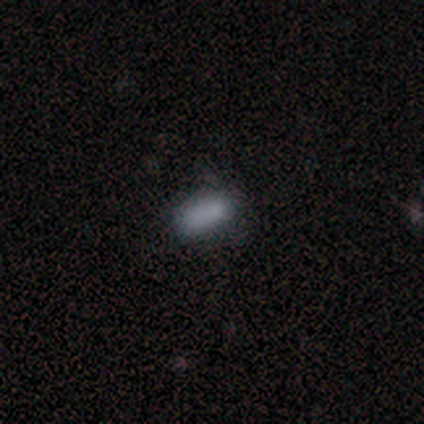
A smooth galaxy with no disk features (100%) that is in between round and cigar-shaped (100%). Merging: minor disturbance (80%).